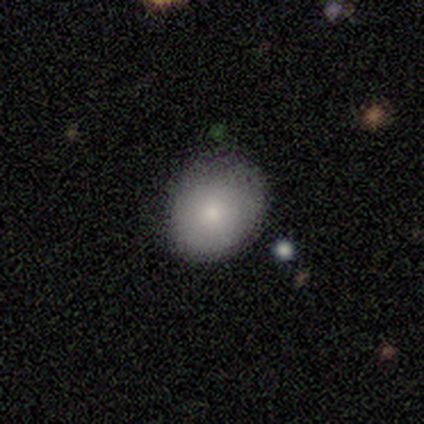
A smooth galaxy with no disk features (100%) that is in between round and cigar-shaped (60%).

Vote fractions:
- Smooth or featured? smooth: 100% / featured or disk: 0% / star or artifact: 0%
- How rounded? in between: 60% / round: 40% / cigar-shaped: 0%
- Merging? none: 80% / minor disturbance: 20% / major disturbance: 0% / merger: 0%